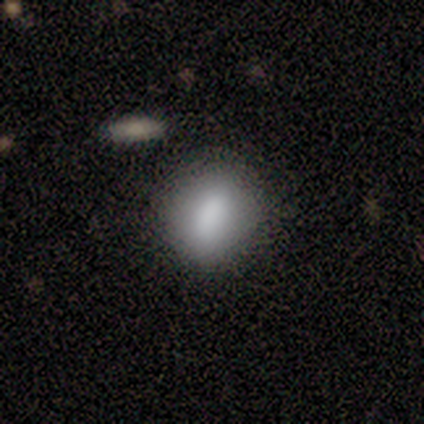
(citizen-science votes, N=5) Q: Smooth or featured?
A: smooth (80%); runner-up: star or artifact (20%)
Q: How rounded?
A: round (50%); tied with: in between (50%)
Q: Merging?
A: none (100%)